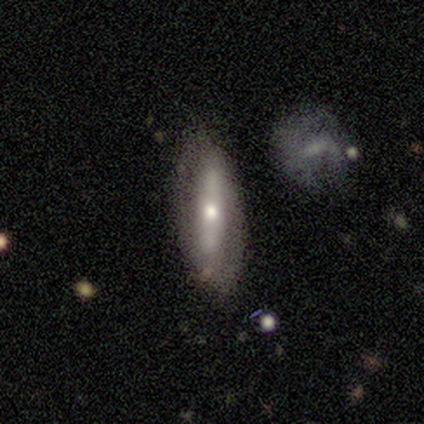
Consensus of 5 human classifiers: A featured or disk galaxy (60%) viewed edge-on (67%) with no central bulge (50%, tied with rounded). Merging: none (100%).